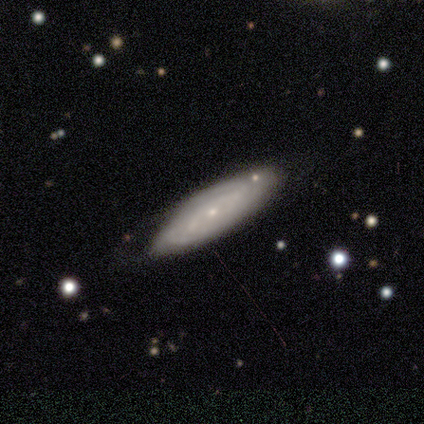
Smooth or featured? 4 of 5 (80%) said featured or disk. Edge-on disk? 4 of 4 (100%) said no. Bar? 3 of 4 (75%) said no. Spiral arms? 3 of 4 (75%) said yes. Spiral winding? 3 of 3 (100%) said tight. Spiral arm count? 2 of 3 (67%) said can't tell. Bulge size? 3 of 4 (75%) said small. Merging? 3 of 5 (60%) said none.